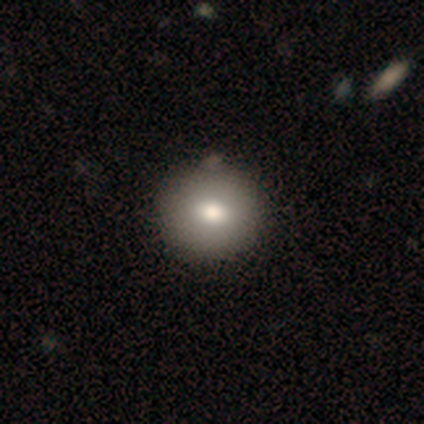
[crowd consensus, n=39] Morphology: type=smooth (92%); roundness=round (81%); merging=none (73%).